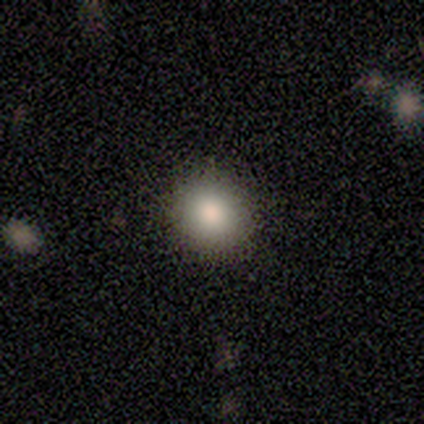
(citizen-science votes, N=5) smooth_or_featured: smooth (p=0.80) [alt: star or artifact p=0.20]
how_rounded: round (p=1.00)
merging: none (p=1.00)